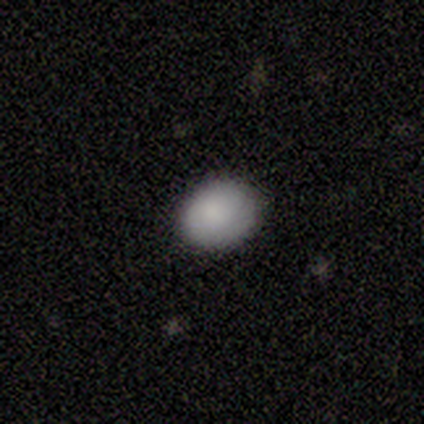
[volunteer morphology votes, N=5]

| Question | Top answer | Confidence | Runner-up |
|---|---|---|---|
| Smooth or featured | smooth | 100% | — |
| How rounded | in between | 60% | round (40%) |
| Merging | none | 100% | — |